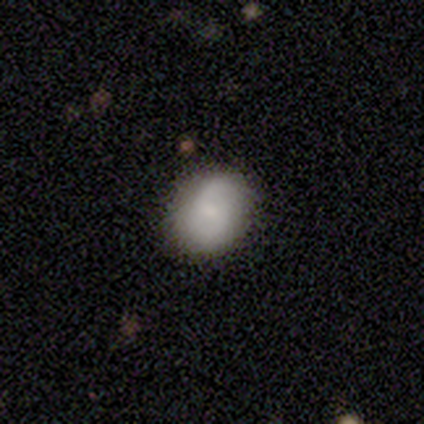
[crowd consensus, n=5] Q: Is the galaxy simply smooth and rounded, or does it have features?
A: smooth — 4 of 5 (80%).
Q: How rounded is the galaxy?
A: round — 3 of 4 (75%).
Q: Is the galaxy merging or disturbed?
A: none — 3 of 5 (60%).